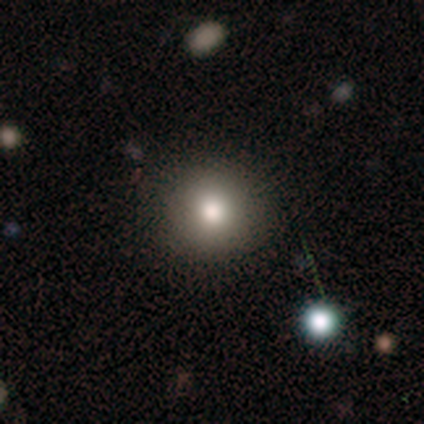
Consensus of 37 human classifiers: This appears to be a smooth galaxy with no disk features (81%) that is round (93%). Merging: none (97%).